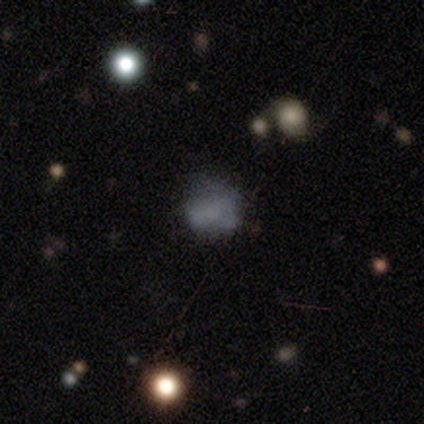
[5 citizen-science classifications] Q: Smooth or featured?
A: smooth (60%); runner-up: featured or disk (40%)
Q: How rounded?
A: in between (67%); runner-up: round (33%)
Q: Merging?
A: major disturbance (60%); runner-up: none (40%)